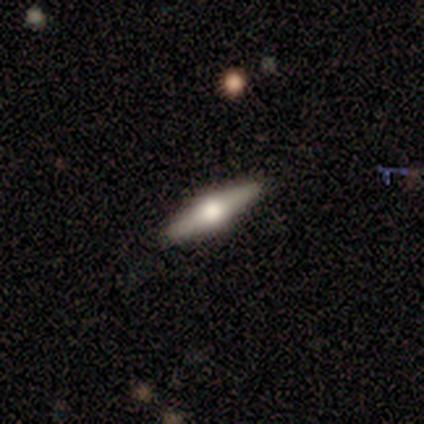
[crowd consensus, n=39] Smooth or featured: featured or disk — 59% (smooth — 28%)
Edge-on disk: yes — 96% (no — 4%)
Edge-on bulge: rounded — 95% (none — 5%)
Merging: none — 97% (major disturbance — 3%)